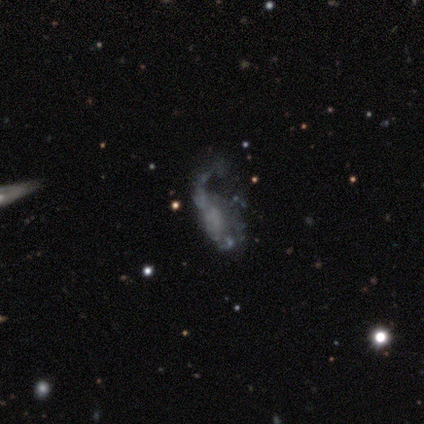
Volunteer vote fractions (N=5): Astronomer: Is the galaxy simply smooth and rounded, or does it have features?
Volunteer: smooth — 40%, tied with featured or disk at 40%.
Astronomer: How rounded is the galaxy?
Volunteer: in between — 100%.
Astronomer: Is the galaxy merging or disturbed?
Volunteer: major disturbance — 50%.